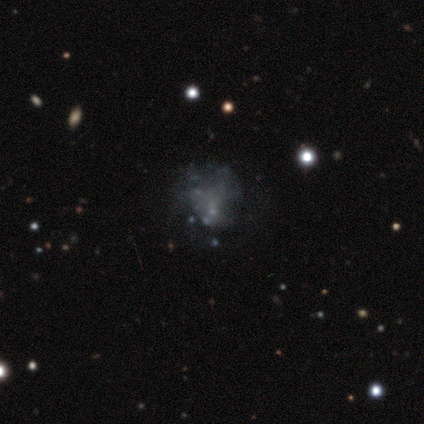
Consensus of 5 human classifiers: Smooth or featured?
  - star or artifact: 60% *
  - featured or disk: 40%
  - smooth: 0%